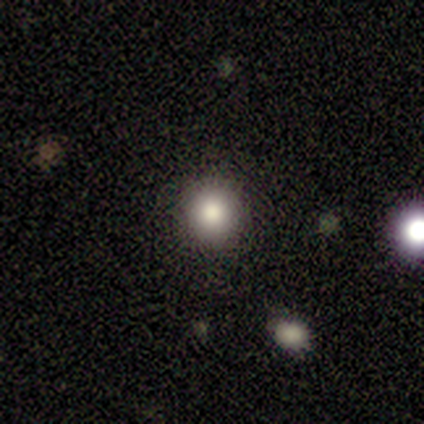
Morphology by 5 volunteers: A smooth galaxy with no disk features (60%) that is round (100%). Merging: none (100%).